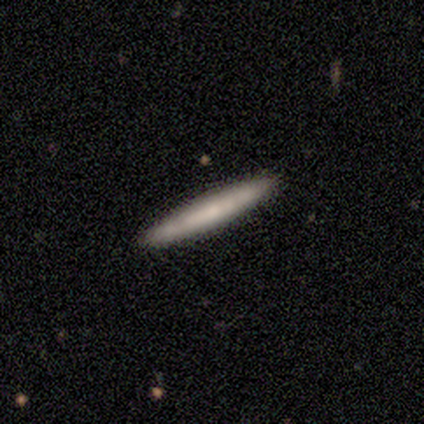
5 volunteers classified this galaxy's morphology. A smooth galaxy with no disk features (100%) that is cigar-shaped (80%). Merging: none (80%).